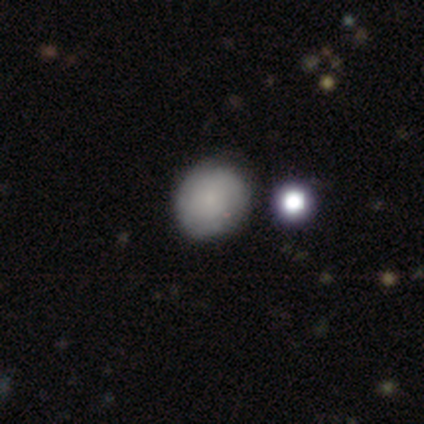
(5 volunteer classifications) Smooth or featured? 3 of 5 (60%) said smooth. How rounded? 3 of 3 (100%) said round. Merging? 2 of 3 (67%) said none.